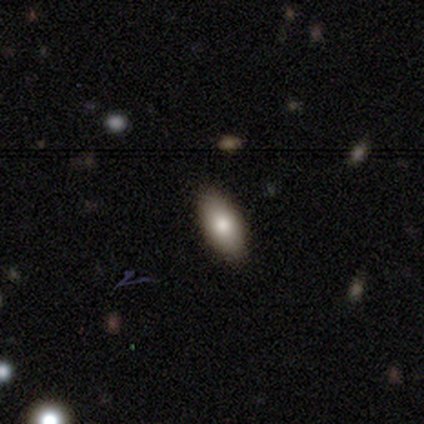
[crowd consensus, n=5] This appears to be a smooth galaxy with no disk features (80%) that is in between round and cigar-shaped (100%). Merging: none (100%).